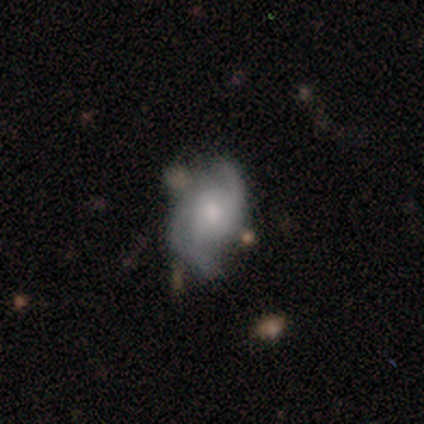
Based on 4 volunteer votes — smooth-or-featured: featured or disk: 75% | smooth: 25% | star or artifact: 0%
  disk-edge-on: no: 100% | yes: 0%
    bar: no: 100% | strong: 0% | weak: 0%
    has-spiral-arms: yes: 100% | no: 0%
      spiral-winding: loose: 67% | medium: 33% | tight: 0%
      spiral-arm-count: 2: 67% | can't tell: 33% | 1: 0% | 3: 0% | 4: 0% | more than 4: 0%
    bulge-size: moderate: 67% | small: 33% | dominant: 0% | large: 0% | none: 0%
  merging: none: 75% | minor disturbance: 25% | major disturbance: 0% | merger: 0%